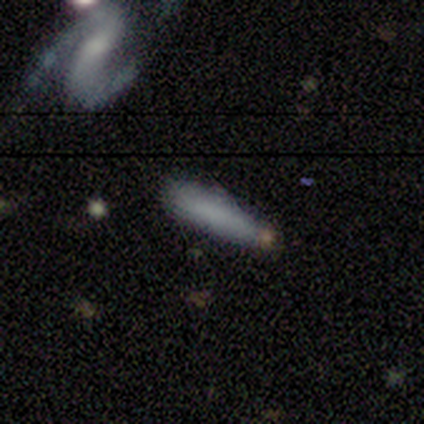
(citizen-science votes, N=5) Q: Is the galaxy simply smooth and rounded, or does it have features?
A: smooth — 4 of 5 (80%).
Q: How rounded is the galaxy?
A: cigar-shaped — 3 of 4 (75%).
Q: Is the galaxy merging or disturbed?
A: none — 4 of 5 (80%).